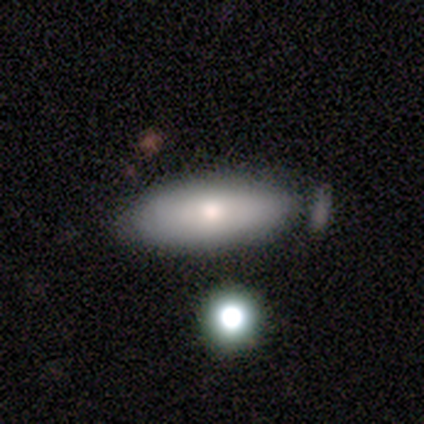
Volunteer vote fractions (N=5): Smooth or featured? 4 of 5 (80%) said smooth. How rounded? 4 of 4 (100%) said in between. Merging? 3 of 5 (60%) said minor disturbance.